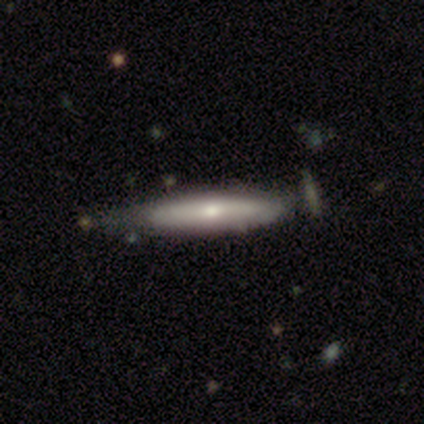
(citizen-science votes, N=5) A featured or disk galaxy (80%) viewed edge-on (100%) with a rounded central bulge (100%). Merging: none (40%, tied with major disturbance).